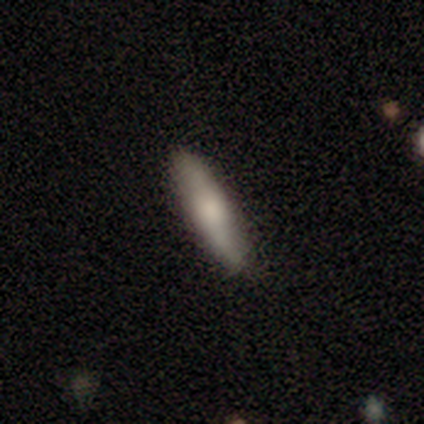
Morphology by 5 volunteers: type=smooth (60%); roundness=cigar-shaped (67%); merging=none (100%).